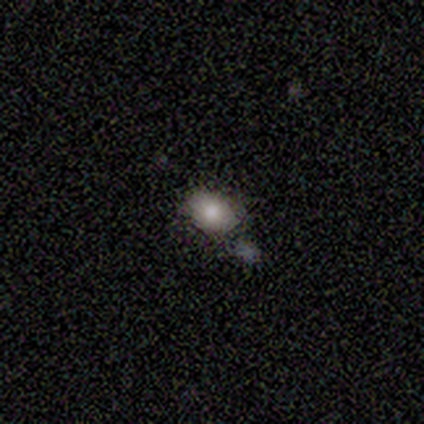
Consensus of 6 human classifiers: This appears to be a smooth galaxy with no disk features (83%) that is in between round and cigar-shaped (80%). Merging: none (67%).